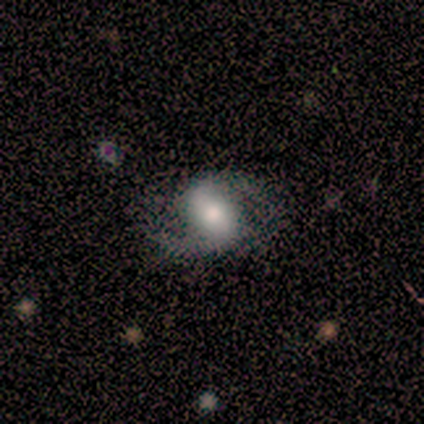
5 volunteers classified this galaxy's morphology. Smooth or featured: featured or disk — 100%
Edge-on disk: no — 100%
Bar: weak — 60% (strong — 20%)
Spiral arms: yes — 100%
Spiral winding: loose — 60% (medium — 40%)
Spiral arm count: 2 — 100%
Bulge size: moderate — 60% (large — 40%)
Merging: none — 40% (tied with major disturbance — 40%)